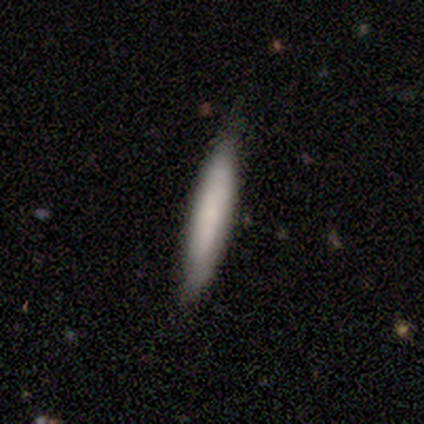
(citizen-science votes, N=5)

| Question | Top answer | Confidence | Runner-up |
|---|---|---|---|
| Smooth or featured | smooth | 60% | featured or disk (40%) |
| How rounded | cigar-shaped | 100% | — |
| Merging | none | 100% | — |